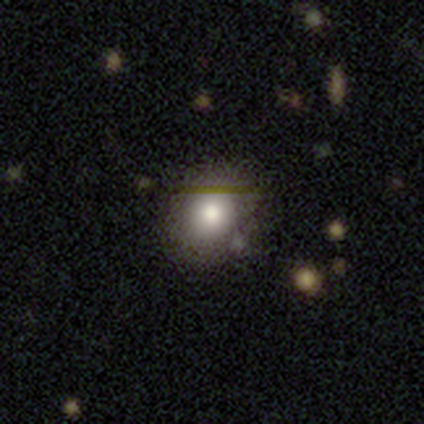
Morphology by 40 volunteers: smooth 70%, featured or disk 22%, star or artifact 8%. Down the decision tree: how rounded — round (82%); merging — none (86%).